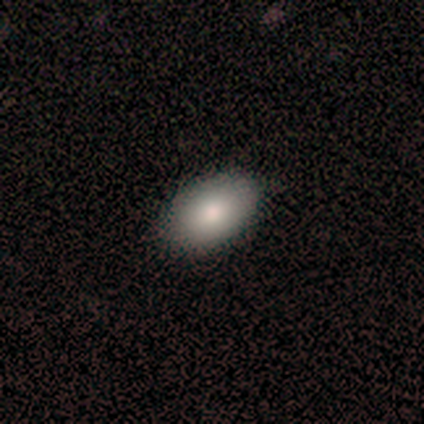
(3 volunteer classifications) This is clearly a smooth galaxy (100%). How rounded: clearly in between (100%). Merging: clearly none (100%).